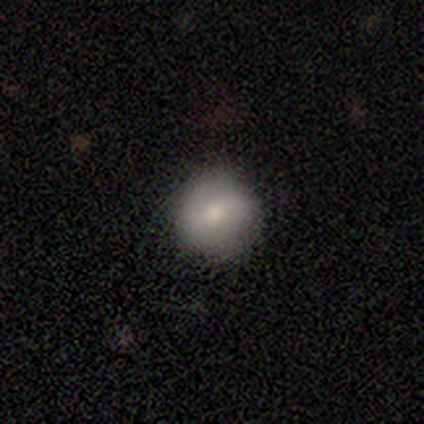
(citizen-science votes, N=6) smooth_or_featured: smooth (p=0.67) [alt: featured or disk p=0.17]
how_rounded: round (p=1.00)
merging: none (p=0.80) [alt: minor disturbance p=0.20]